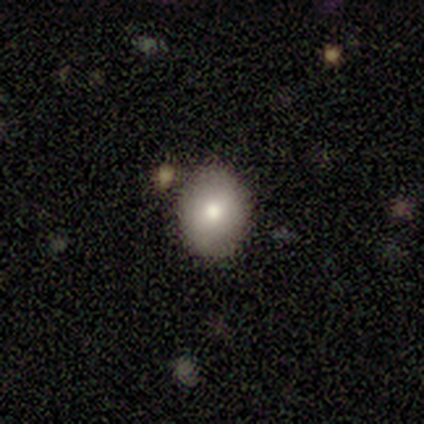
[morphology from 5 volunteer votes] This is clearly a smooth galaxy (100%). How rounded: clearly round (80%). Merging: clearly none (100%).